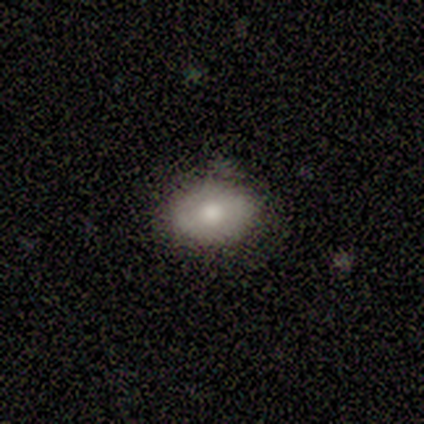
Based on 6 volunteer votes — A smooth galaxy with no disk features (67%) that is in between round and cigar-shaped (100%).

Vote fractions:
- Smooth or featured? smooth: 67% / featured or disk: 33% / star or artifact: 0%
- How rounded? in between: 100% / round: 0% / cigar-shaped: 0%
- Merging? none: 67% / minor disturbance: 33% / major disturbance: 0% / merger: 0%